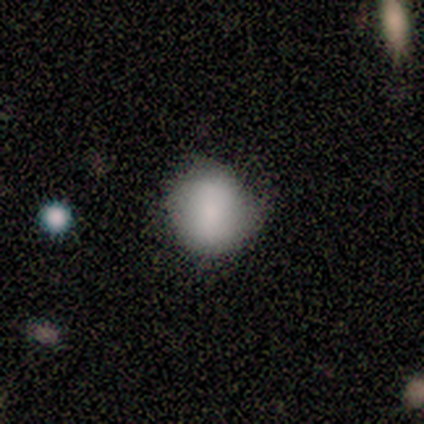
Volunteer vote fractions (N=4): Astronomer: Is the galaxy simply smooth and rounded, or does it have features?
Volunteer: smooth — 100%.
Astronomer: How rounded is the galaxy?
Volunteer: round — 100%.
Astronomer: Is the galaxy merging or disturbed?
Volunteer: none — 100%.